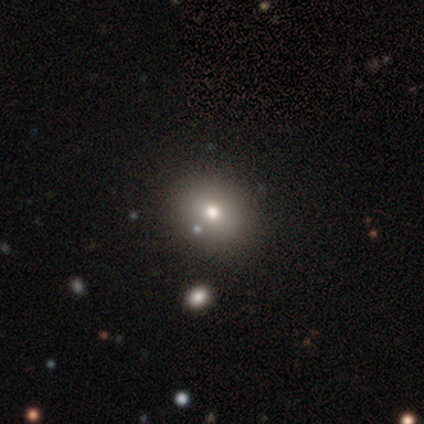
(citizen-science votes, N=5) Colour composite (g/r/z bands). It shows a smooth galaxy with no disk features (80%) that is round (100%). Merging: none (75%).